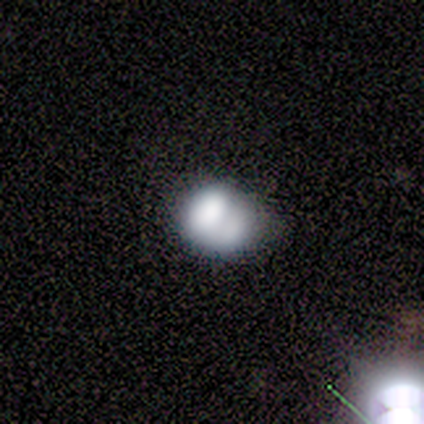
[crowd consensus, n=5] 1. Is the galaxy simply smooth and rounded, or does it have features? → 100% smooth, 0% featured or disk, 0% star or artifact.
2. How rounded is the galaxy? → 60% in between, 40% round, 0% cigar-shaped.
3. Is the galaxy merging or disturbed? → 60% none, 20% minor disturbance, 20% merger, 0% major disturbance.